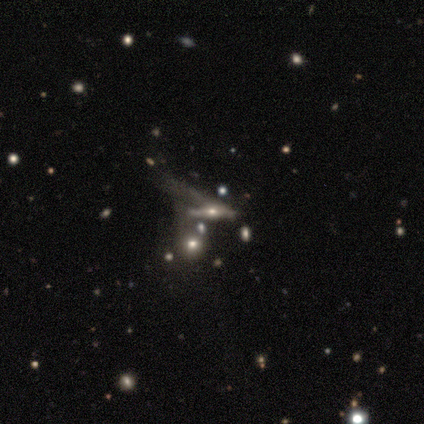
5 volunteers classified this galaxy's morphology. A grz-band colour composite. It shows a featured or disk galaxy (60%) viewed edge-on (67%) with a rounded central bulge (100%). Merging: major disturbance (50%, tied with merger).